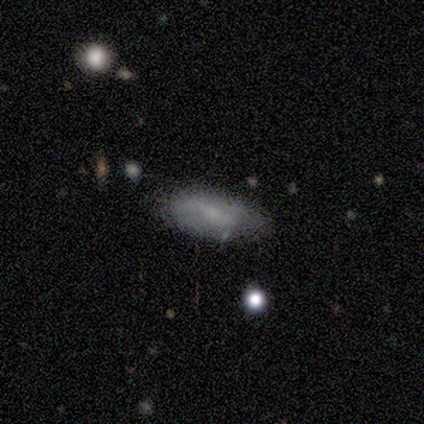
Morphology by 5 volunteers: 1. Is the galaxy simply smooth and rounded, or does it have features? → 80% smooth, 20% featured or disk, 0% star or artifact.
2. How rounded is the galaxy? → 100% in between, 0% round, 0% cigar-shaped.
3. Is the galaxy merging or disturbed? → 60% none, 20% minor disturbance, 20% major disturbance, 0% merger.